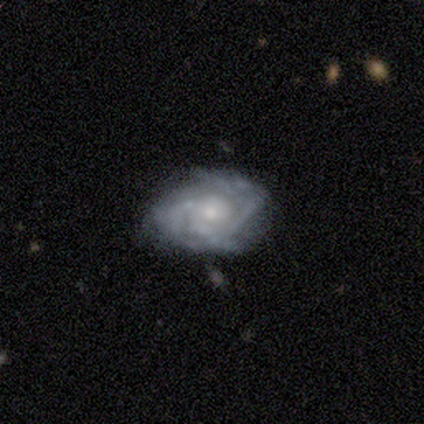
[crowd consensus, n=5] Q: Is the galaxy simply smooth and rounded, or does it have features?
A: featured or disk — 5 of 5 (100%).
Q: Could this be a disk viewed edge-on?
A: no — 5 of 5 (100%).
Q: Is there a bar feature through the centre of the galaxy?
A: no — 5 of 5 (100%).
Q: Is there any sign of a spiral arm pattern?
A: yes — 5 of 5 (100%).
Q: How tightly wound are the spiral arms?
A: tight — 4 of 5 (80%).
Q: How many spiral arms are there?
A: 4 — 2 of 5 (40%).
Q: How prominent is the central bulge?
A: small — 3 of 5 (60%).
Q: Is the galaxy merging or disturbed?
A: none — 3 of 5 (60%).